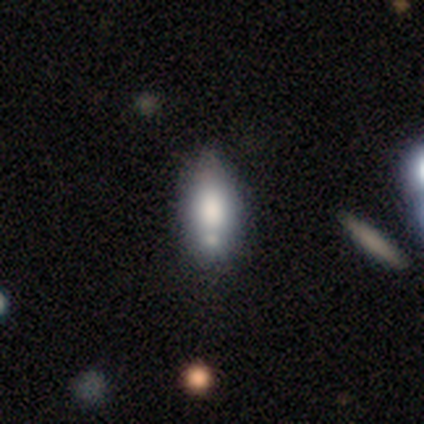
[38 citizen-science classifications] Overall: smooth (71%). How rounded: in between (89%). Merging: none (46%; minor disturbance 41%).